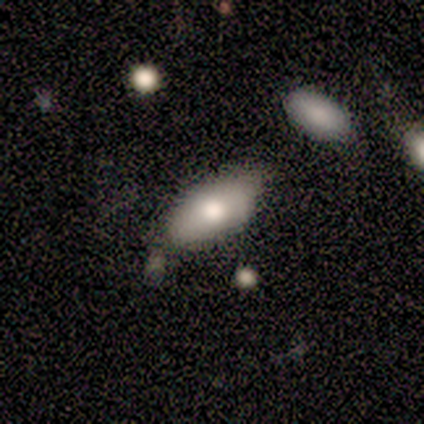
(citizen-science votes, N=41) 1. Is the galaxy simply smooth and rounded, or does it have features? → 63% smooth, 22% featured or disk, 15% star or artifact.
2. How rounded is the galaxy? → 81% in between, 15% cigar-shaped, 4% round.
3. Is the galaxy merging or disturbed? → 66% none, 20% minor disturbance, 11% merger, 3% major disturbance.